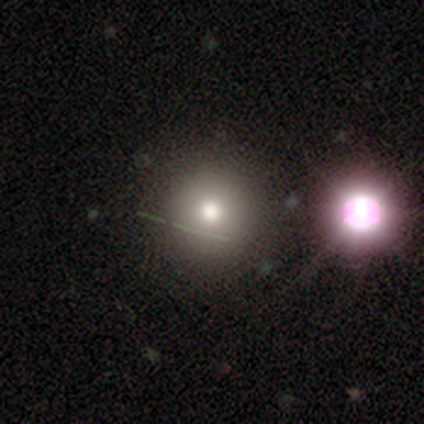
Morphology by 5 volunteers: Smooth or featured? 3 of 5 (60%) said smooth. How rounded? 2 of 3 (67%) said round. Merging? 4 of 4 (100%) said none.